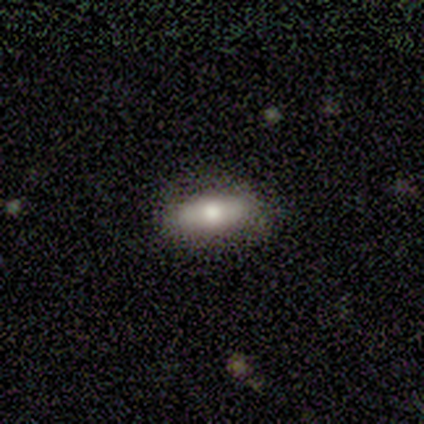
smooth_or_featured: smooth (p=0.86) [alt: featured or disk p=0.14]
how_rounded: in between (p=0.67) [alt: cigar-shaped p=0.33]
merging: none (p=0.71) [alt: minor disturbance p=0.29]